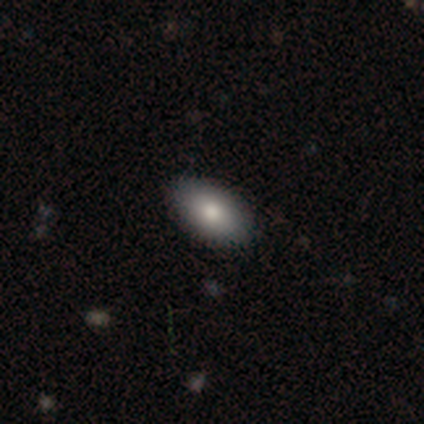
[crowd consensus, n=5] smooth_or_featured: smooth (p=1.00)
how_rounded: in between (p=1.00)
merging: none (p=0.80) [alt: minor disturbance p=0.20]